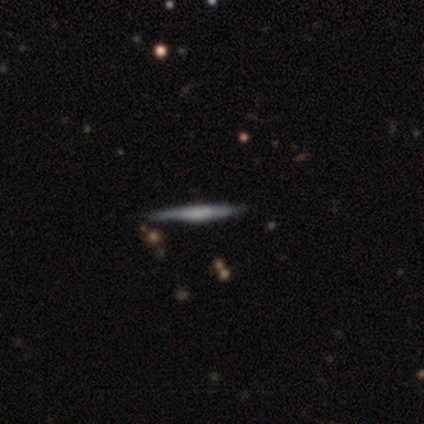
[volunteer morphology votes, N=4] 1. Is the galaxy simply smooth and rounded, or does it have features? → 100% featured or disk, 0% smooth, 0% star or artifact.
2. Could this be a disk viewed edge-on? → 100% yes, 0% no.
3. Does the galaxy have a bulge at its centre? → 50% rounded, 25% boxy, 25% none.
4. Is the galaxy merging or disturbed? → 100% none, 0% minor disturbance, 0% major disturbance, 0% merger.